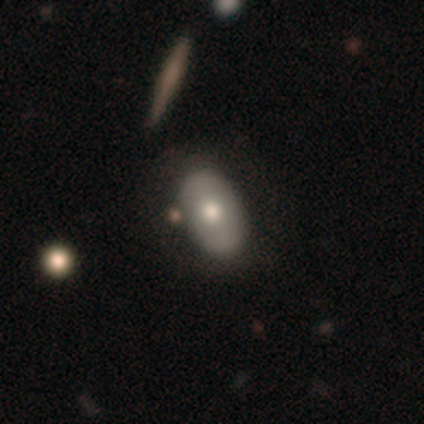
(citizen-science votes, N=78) Smooth or featured?
  - smooth: 58% *
  - featured or disk: 40%
  - star or artifact: 3%
How rounded?
  - in between: 91% *
  - round: 9%
  - cigar-shaped: 0%
Merging?
  - none: 34% *
  - merger: 13%
  - minor disturbance: 9%
  - major disturbance: 5%